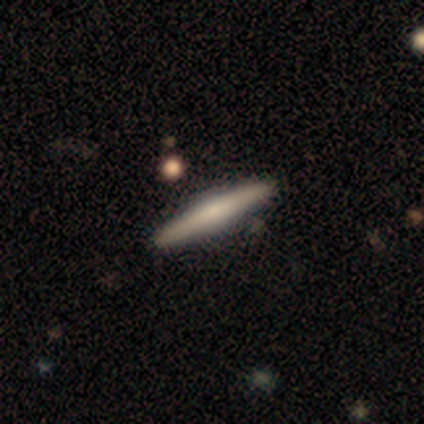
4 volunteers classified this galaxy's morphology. Volunteers were most divided on "smooth or featured" (2-way tie): smooth: 50%, featured or disk: 50%, star or artifact: 0%. More confident: how rounded — cigar-shaped (100%); merging — none (100%).